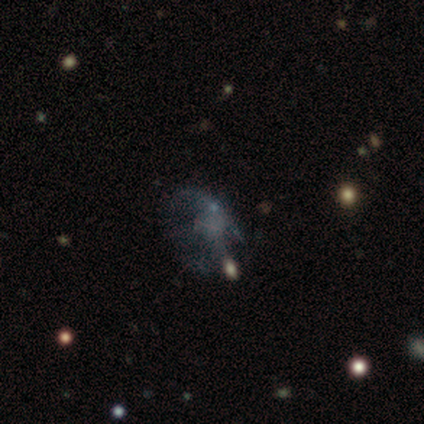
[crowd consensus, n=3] Overall: featured or disk (100%). Edge-on disk: no (100%). Bar: no (100%). Spiral arms: yes (67%; no 33%). Spiral arm count: 2 (50%, tied with can't tell). Spiral winding: tight (50%, tied with loose). Bulge size: none (100%). Merging: major disturbance (67%; merger 33%).